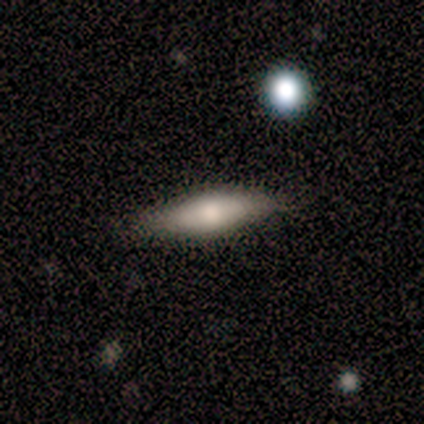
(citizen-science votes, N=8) Overall: featured or disk (62%; smooth 38%). Edge-on disk: yes (80%). Edge-on bulge: rounded (75%). Merging: none (88%).